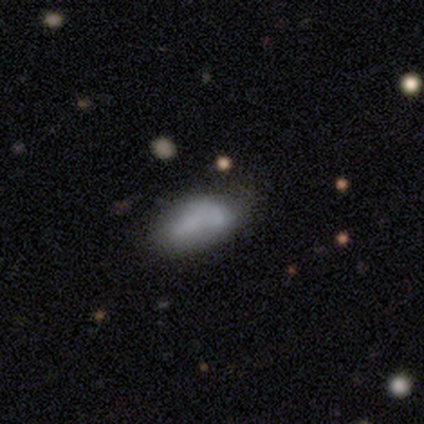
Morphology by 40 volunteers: smooth 65%, featured or disk 30%, star or artifact 5%. Down the decision tree: how rounded — in between (96%); merging — none (32%).